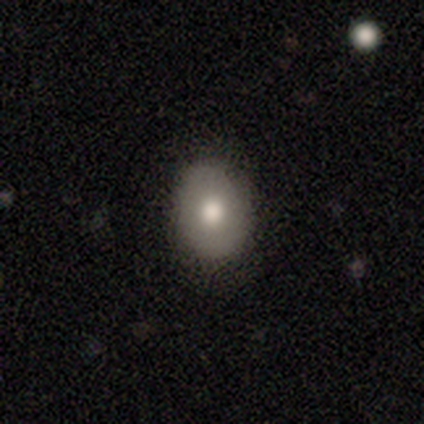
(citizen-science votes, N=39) A smooth galaxy with no disk features (74%) that is in between round and cigar-shaped (52%).

Vote fractions:
- Smooth or featured? smooth: 74% / featured or disk: 21% / star or artifact: 5%
- How rounded? in between: 52% / round: 48% / cigar-shaped: 0%
- Merging? none: 81% / minor disturbance: 16% / major disturbance: 3% / merger: 0%